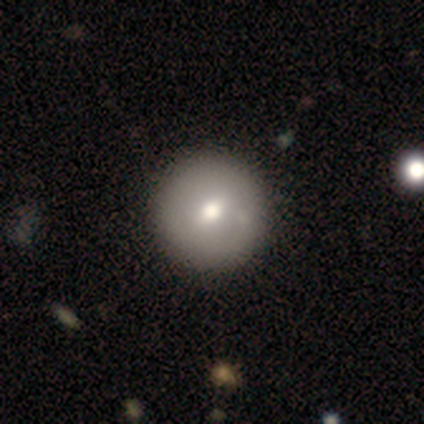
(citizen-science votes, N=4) smooth_or_featured: smooth (p=1.00)
how_rounded: round (p=1.00)
merging: minor disturbance (p=0.50) [alt: none p=0.25]